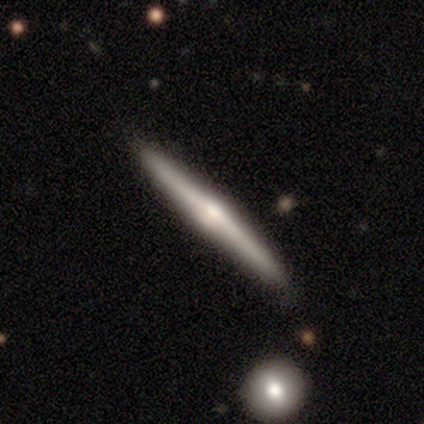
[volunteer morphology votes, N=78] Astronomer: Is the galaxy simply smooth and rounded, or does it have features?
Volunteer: featured or disk — 72%.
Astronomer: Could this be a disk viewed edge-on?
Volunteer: yes — 98%.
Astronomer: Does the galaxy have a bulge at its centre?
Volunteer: rounded — 85%.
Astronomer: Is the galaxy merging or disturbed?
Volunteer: none — 43%.